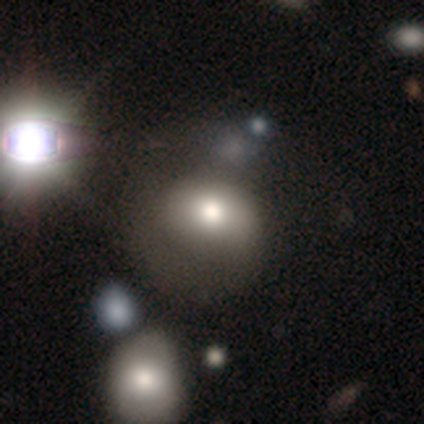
This appears to be a smooth galaxy with no disk features (60%) that is in between round and cigar-shaped (67%). Merging: merger (50%).